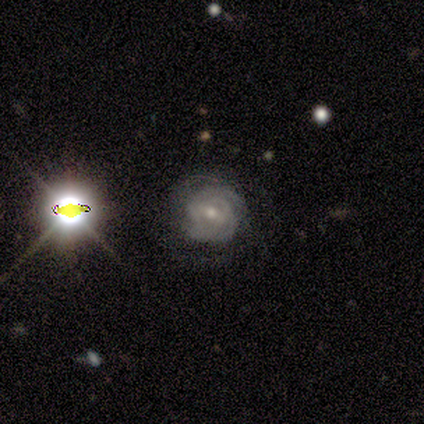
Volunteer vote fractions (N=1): featured or disk 100%, smooth 0%, star or artifact 0%. Down the decision tree: edge-on disk — no (100%); bar — no (100%); spiral arms — no (100%); bulge size — small (100%); merging — none (100%).